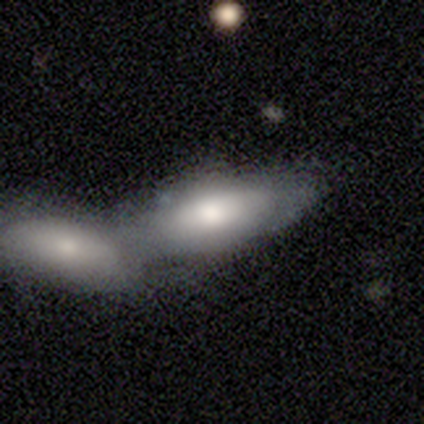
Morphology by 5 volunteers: Smooth or featured: featured or disk — 60% (smooth — 40%)
Edge-on disk: no — 100%
Bar: no — 67% (weak — 33%)
Spiral arms: no — 100%
Bulge size: moderate — 67% (small — 33%)
Merging: merger — 60% (none — 40%)